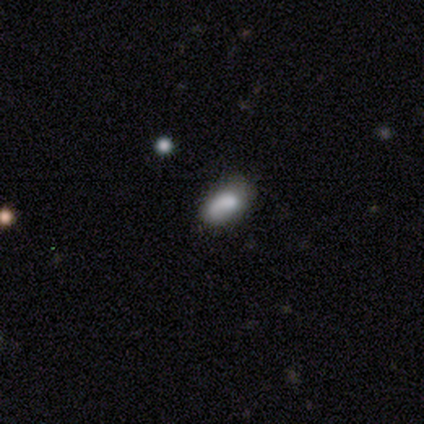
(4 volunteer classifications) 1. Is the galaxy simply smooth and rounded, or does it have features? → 75% smooth, 25% star or artifact, 0% featured or disk.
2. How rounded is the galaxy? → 67% in between, 33% cigar-shaped, 0% round.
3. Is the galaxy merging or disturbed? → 100% none, 0% minor disturbance, 0% major disturbance, 0% merger.